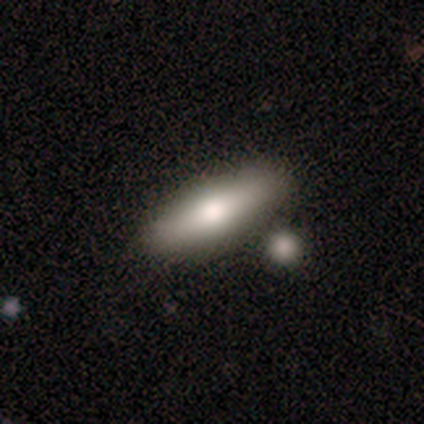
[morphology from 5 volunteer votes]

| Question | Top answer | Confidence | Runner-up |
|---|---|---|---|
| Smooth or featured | smooth | 60% | featured or disk (40%) |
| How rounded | cigar-shaped | 67% | in between (33%) |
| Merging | none | 60% | major disturbance (40%) |